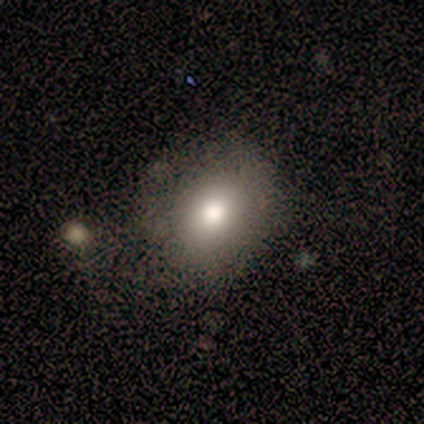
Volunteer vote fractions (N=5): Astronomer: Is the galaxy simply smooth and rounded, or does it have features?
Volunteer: smooth — 60%.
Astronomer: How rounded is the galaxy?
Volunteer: round — 100%.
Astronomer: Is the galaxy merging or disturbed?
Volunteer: none — 50%.